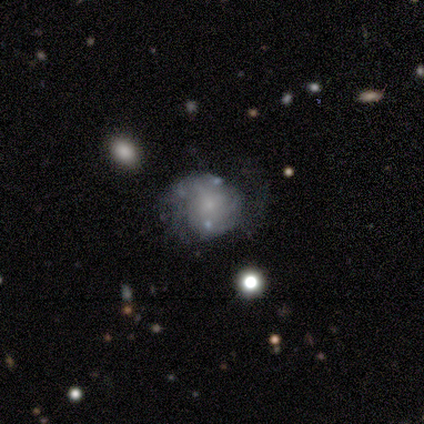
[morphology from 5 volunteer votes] Smooth or featured: smooth — 60% (featured or disk — 40%)
How rounded: in between — 67% (round — 33%)
Merging: none — 60% (major disturbance — 40%)